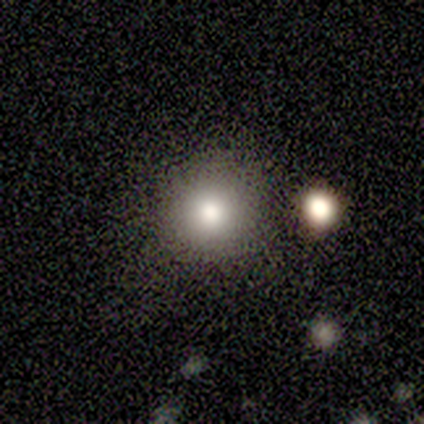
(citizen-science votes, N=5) A smooth galaxy with no disk features (100%) that is round (100%). Merging: none (80%).